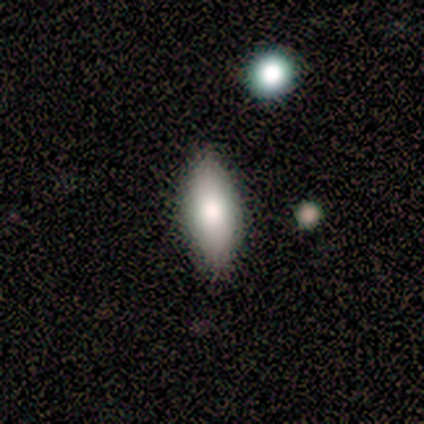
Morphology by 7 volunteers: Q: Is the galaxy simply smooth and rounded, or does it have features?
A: smooth — 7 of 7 (100%).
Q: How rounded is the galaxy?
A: in between — 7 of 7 (100%).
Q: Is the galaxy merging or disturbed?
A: none — 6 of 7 (86%).